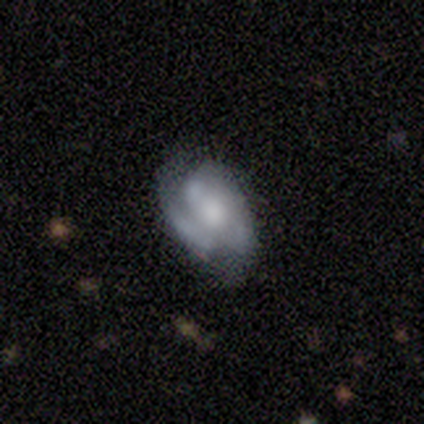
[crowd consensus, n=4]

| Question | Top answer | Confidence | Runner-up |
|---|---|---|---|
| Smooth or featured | featured or disk | 75% | smooth (25%) |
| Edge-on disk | no | 100% | — |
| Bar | no | 100% | — |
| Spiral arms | yes | 67% | no (33%) |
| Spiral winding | medium | 50% | tied: loose (50%) |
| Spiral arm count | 3 | 100% | — |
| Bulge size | large | 33% | tied: small (33%), none (33%) |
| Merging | none | 50% | tied: minor disturbance (50%) |